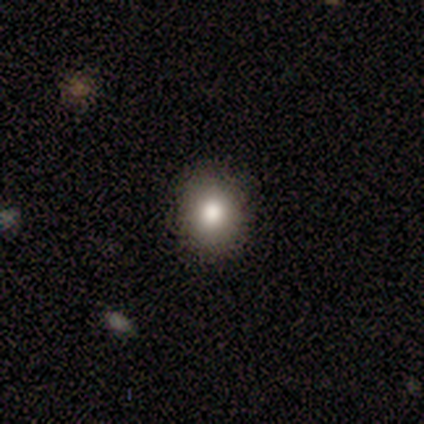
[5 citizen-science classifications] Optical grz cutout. It shows a smooth galaxy with no disk features (80%) that is round (50%, tied with in between). Merging: none (100%).